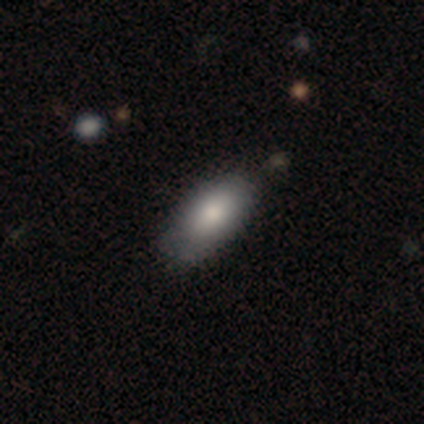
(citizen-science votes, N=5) smooth 80%, featured or disk 20%, star or artifact 0%. Down the decision tree: how rounded — in between (75%); merging — none (80%).